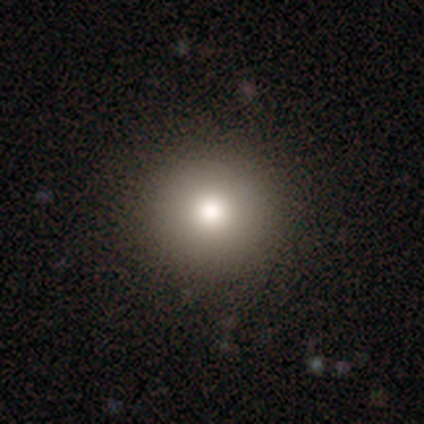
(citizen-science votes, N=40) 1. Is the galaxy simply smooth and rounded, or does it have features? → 78% smooth, 15% featured or disk, 8% star or artifact.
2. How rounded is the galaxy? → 97% round, 3% in between, 0% cigar-shaped.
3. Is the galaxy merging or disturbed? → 89% none, 8% major disturbance, 3% minor disturbance, 0% merger.